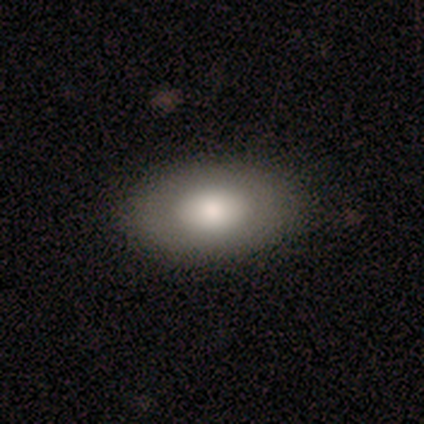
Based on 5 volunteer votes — This appears to be a smooth galaxy with no disk features (100%) that is in between round and cigar-shaped (100%). Merging: none (80%).